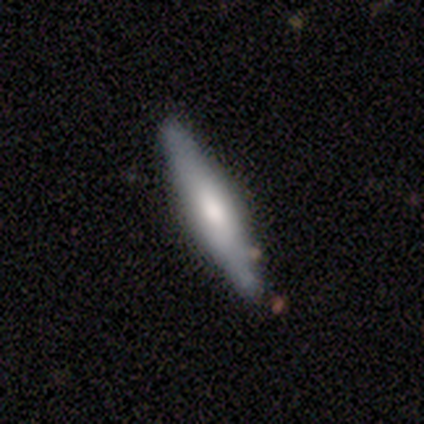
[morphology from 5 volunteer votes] Smooth or featured? smooth (60%)
How rounded? cigar-shaped (100%)
Merging? none (100%)